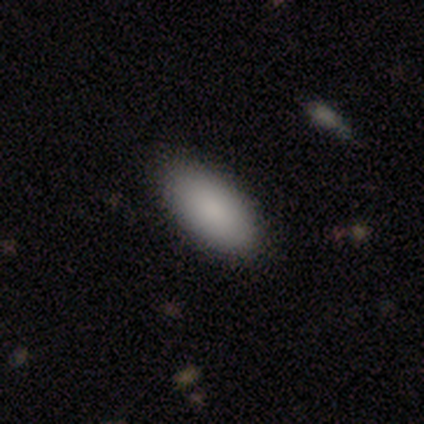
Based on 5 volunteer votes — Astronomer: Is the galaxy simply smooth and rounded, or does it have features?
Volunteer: smooth — 100%.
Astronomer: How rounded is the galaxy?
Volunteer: in between — 100%.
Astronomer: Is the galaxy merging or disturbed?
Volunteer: none — 100%.